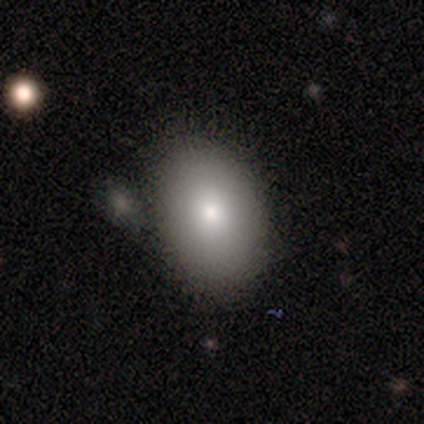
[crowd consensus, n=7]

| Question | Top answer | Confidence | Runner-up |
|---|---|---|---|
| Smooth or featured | smooth | 71% | featured or disk (29%) |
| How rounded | in between | 100% | — |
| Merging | none | 71% | minor disturbance (29%) |